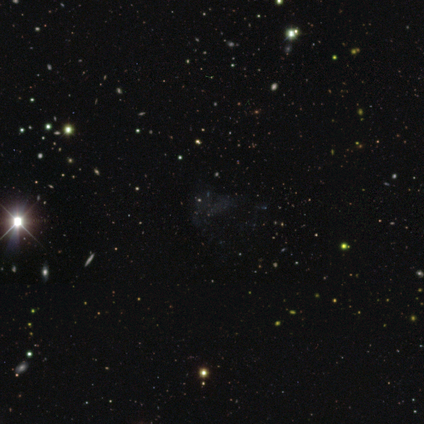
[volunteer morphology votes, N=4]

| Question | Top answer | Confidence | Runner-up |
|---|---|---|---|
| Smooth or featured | star or artifact | 50% | smooth (25%) |